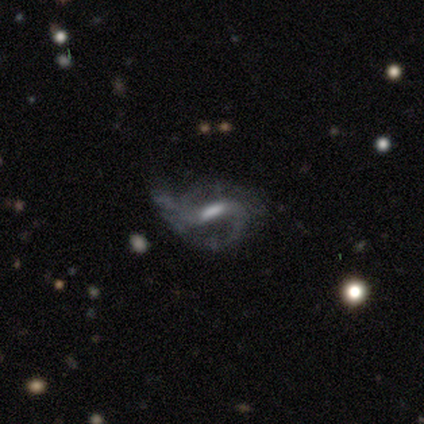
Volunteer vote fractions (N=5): Smooth or featured?
  - featured or disk: 80% *
  - star or artifact: 20%
  - smooth: 0%
Edge-on disk?
  - no: 100% *
  - yes: 0%
Bar?
  - weak: 50% *
  - strong: 25%
  - no: 25%
Spiral arms?
  - yes: 100% *
  - no: 0%
Spiral winding?
  - medium: 50% *
  - tight: 25%
  - loose: 25%
Spiral arm count?
  - 2: 75% *
  - 3: 25%
  - 1: 0%
  - 4: 0%
  - more than 4: 0%
  - can't tell: 0%
Bulge size?
  - moderate: 50% *
  - large: 25%
  - small: 25%
  - dominant: 0%
  - none: 0%
Merging?
  - major disturbance: 75% *
  - none: 25%
  - minor disturbance: 0%
  - merger: 0%